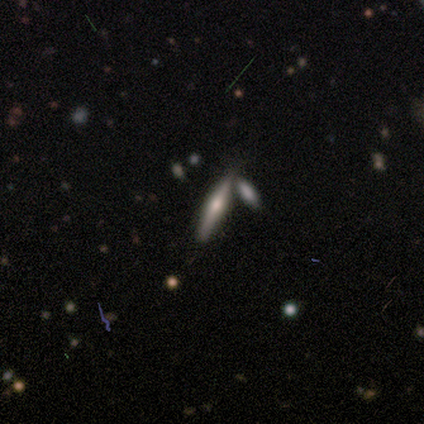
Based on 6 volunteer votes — This is likely a featured or disk galaxy (67%). It is clearly viewed edge-on (100%). Edge-on bulge: likely rounded (75%). Merging: clearly none (80%).